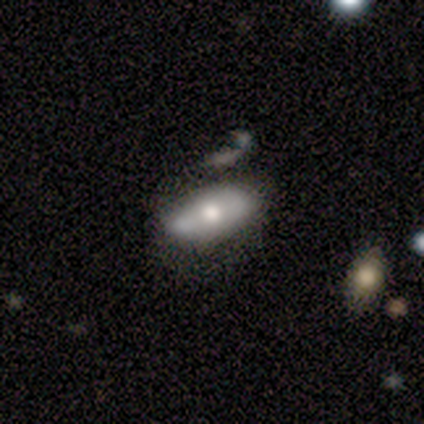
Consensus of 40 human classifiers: This appears to be a smooth galaxy with no disk features (68%) that is in between round and cigar-shaped (93%). Merging: none (57%).